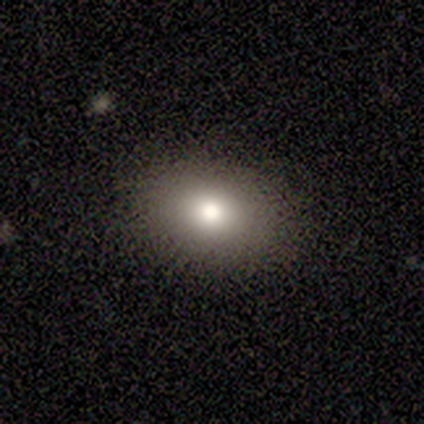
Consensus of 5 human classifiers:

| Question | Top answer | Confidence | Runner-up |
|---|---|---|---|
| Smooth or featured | smooth | 60% | featured or disk (20%) |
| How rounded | round | 67% | in between (33%) |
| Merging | none | 100% | — |